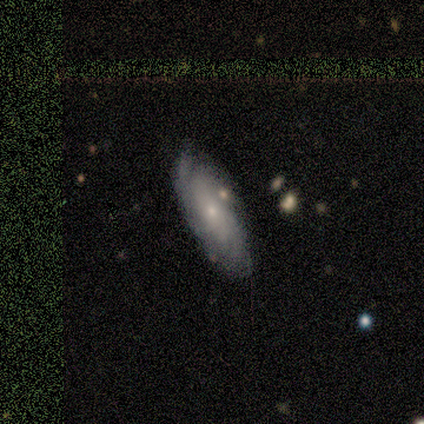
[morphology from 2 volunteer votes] This appears to be a featured or disk galaxy (100%) with a weak bar (50%, tied with no), 4 (50%, tied with can't tell) loose (100%) spiral arms (100%) and a moderate central bulge (50%, tied with small). Merging: none (100%).